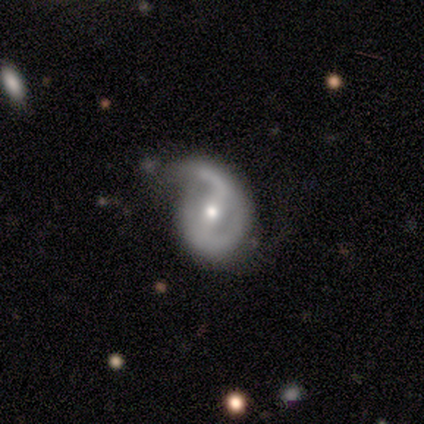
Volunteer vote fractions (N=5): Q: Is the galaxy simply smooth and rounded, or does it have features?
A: featured or disk — 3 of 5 (60%).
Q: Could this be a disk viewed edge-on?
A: no — 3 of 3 (100%).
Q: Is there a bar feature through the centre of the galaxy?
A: weak — 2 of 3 (67%).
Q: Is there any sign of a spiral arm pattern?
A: yes — 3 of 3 (100%).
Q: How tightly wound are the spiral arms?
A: medium — 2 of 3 (67%).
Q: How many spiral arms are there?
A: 1 — 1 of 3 (33%, tied with 2 and can't tell).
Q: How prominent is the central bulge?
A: moderate — 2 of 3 (67%).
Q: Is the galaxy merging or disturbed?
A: minor disturbance — 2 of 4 (50%).